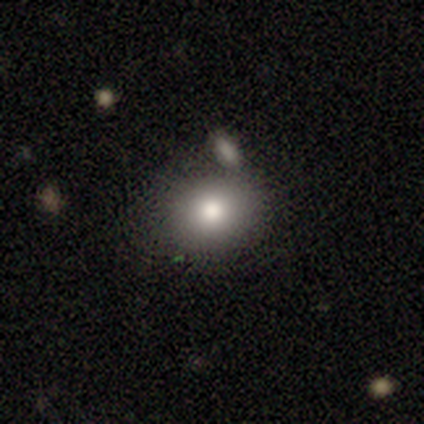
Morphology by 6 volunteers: type=smooth (100%); roundness=round (50%, tied with in between); merging=none (83%).